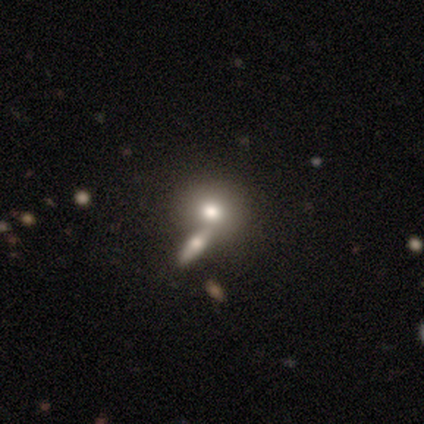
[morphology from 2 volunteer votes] Smooth or featured? 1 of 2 (50%, tied with featured or disk) said smooth. How rounded? 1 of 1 (100%) said round. Merging? 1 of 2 (50%, tied with merger) said none.